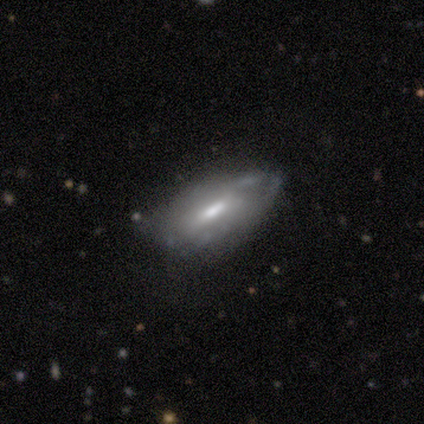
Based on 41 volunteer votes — Smooth or featured: featured or disk — 66% (smooth — 29%)
Edge-on disk: no — 74% (yes — 26%)
Bar: weak — 60% (no — 30%)
Spiral arms: yes — 55% (no — 45%)
Spiral winding: tight — 45% (medium — 27%)
Spiral arm count: can't tell — 64% (2 — 18%)
Bulge size: moderate — 75% (small — 20%)
Merging: none — 72% (minor disturbance — 21%)